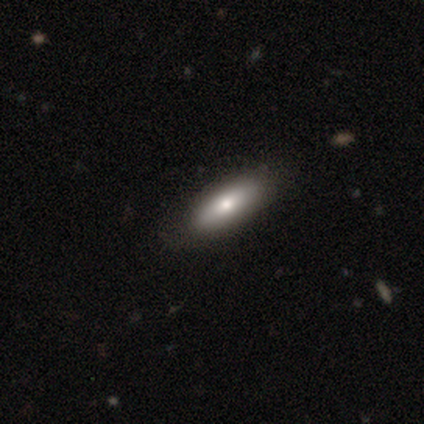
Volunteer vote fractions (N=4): A smooth galaxy with no disk features (75%) that is cigar-shaped (67%).

Vote fractions:
- Smooth or featured? smooth: 75% / featured or disk: 25% / star or artifact: 0%
- How rounded? cigar-shaped: 67% / in between: 33% / round: 0%
- Merging? none: 75% / minor disturbance: 25% / major disturbance: 0% / merger: 0%